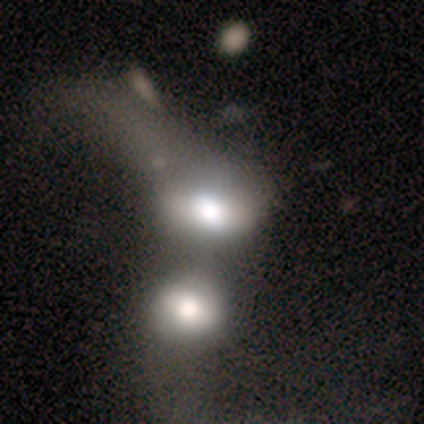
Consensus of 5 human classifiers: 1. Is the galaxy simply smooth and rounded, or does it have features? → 60% smooth, 40% featured or disk, 0% star or artifact.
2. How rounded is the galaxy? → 67% in between, 33% round, 0% cigar-shaped.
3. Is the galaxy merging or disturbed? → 100% merger, 0% none, 0% minor disturbance, 0% major disturbance.